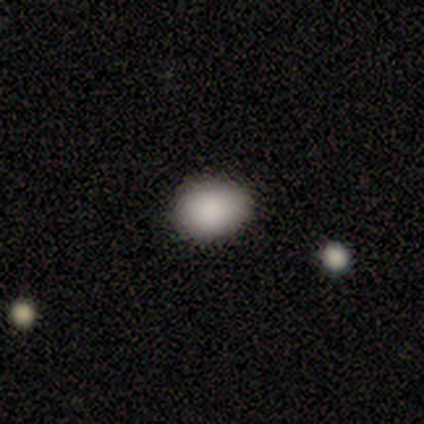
Q: Smooth or featured?
A: smooth (75%); runner-up: star or artifact (25%)
Q: How rounded?
A: in between (67%); runner-up: round (33%)
Q: Merging?
A: none (67%); runner-up: minor disturbance (33%)